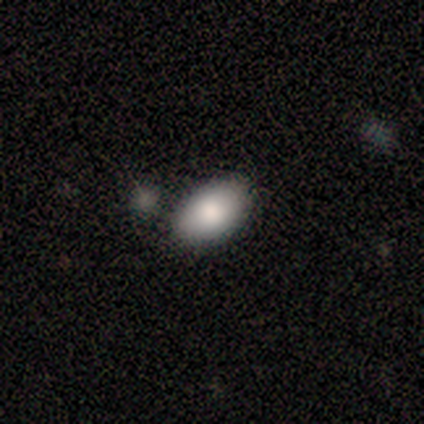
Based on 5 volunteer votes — smooth_or_featured: smooth (p=0.60) [alt: star or artifact p=0.40]
how_rounded: in between (p=0.67) [alt: round p=0.33]
merging: none (p=1.00)